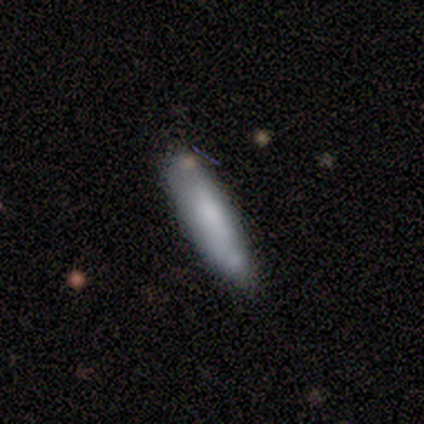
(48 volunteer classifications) This appears to be a smooth galaxy with no disk features (71%) that is cigar-shaped (65%). Merging: none (70%).